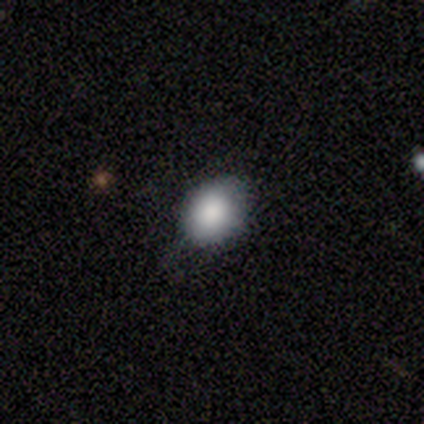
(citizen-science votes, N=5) Overall: smooth (80%). How rounded: in between (75%). Merging: minor disturbance (60%; none 40%).